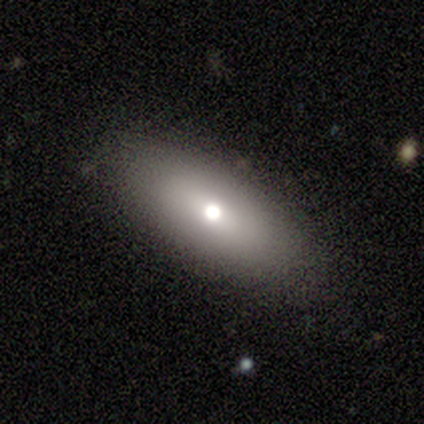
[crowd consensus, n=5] Volunteers were most divided on "bulge size": moderate: 75%, large: 25%, dominant: 0%, small: 0%, none: 0%. More confident: edge-on disk — no (100%); bar — no (100%); spiral arms — no (100%); merging — none (100%); smooth or featured — featured or disk (80%).